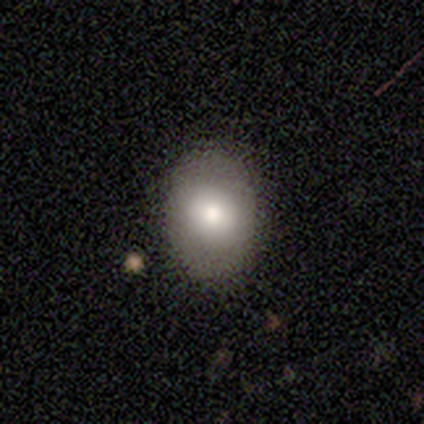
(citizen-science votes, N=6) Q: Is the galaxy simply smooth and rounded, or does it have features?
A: smooth — 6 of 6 (100%).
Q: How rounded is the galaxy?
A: in between — 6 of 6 (100%).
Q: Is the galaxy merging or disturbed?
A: none — 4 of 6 (67%).